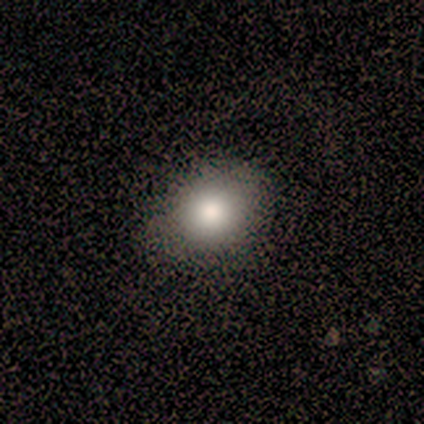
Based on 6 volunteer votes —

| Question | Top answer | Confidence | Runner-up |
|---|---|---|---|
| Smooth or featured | smooth | 83% | star or artifact (17%) |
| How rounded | in between | 80% | round (20%) |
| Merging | none | 100% | — |